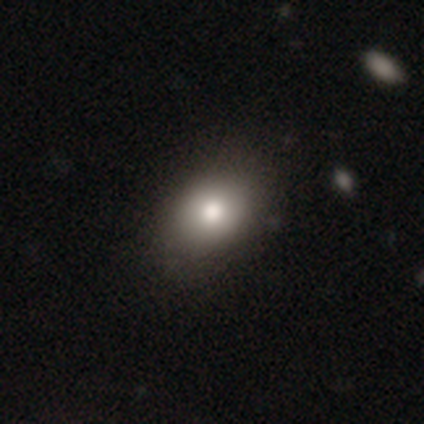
smooth-or-featured: smooth: 75% | featured or disk: 25% | star or artifact: 0%
  how-rounded: in between: 67% | round: 33% | cigar-shaped: 0%
  merging: none: 100% | minor disturbance: 0% | major disturbance: 0% | merger: 0%